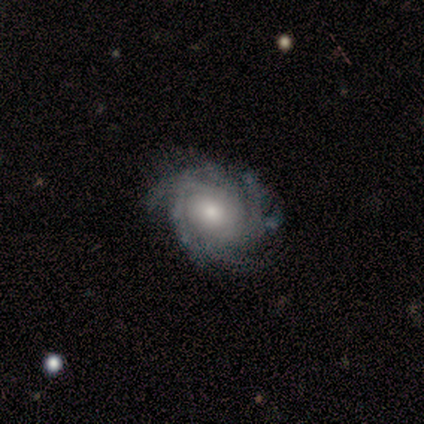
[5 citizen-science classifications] A featured or disk galaxy (80%) with no bar (67%), 2 (33%, tied with 3 and can't tell) tight (67%) spiral arms (100%) and a large central bulge (33%, tied with moderate and small). Merging: none (60%).